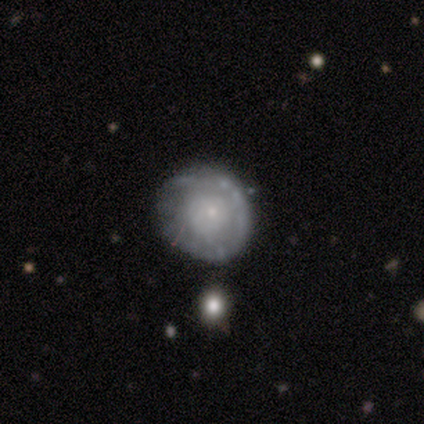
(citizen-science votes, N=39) Morphology: type=featured or disk (67%); edge-on=no (92%); bar=no (88%); spiral arms=yes (58%); winding=tight (50%); arm count=can't tell (64%); bulge=small (88%); merging=none (74%).